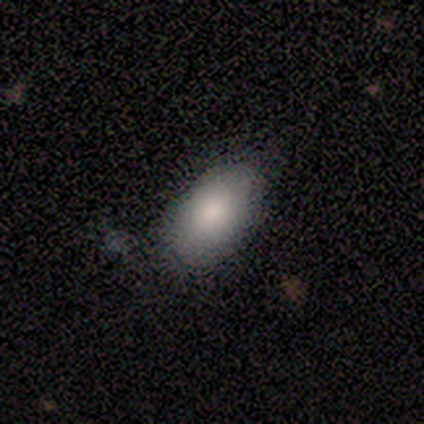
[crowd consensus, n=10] Smooth or featured? smooth (90%)
How rounded? in between (89%)
Merging? none (78%)